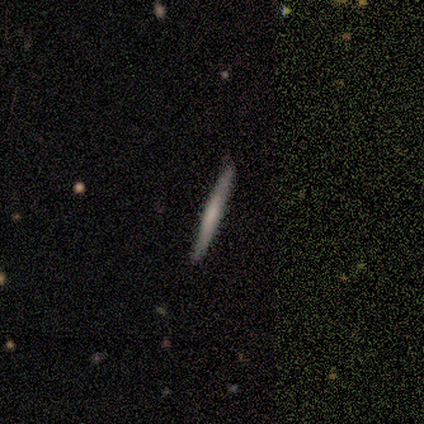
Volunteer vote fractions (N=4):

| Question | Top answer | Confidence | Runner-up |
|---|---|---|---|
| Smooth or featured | smooth | 75% | featured or disk (25%) |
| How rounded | cigar-shaped | 100% | — |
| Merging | none | 100% | — |